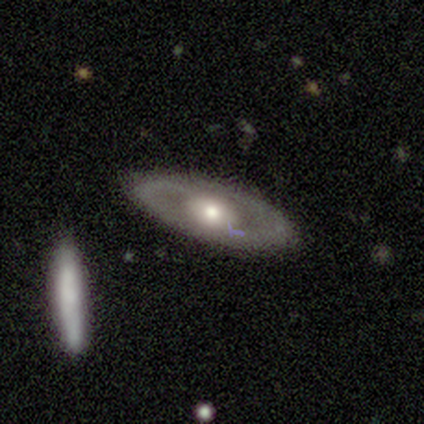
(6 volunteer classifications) smooth_or_featured: featured or disk (p=0.50) [alt: star or artifact p=0.33]
disk_edge_on: no (p=0.67) [alt: yes p=0.33]
bar: no (p=1.00)
has_spiral_arms: no (p=1.00)
bulge_size: large (p=0.50) [tied with: moderate p=0.50]
merging: none (p=1.00)